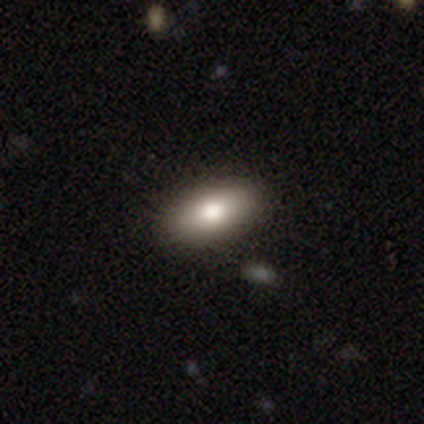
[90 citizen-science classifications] Smooth or featured? 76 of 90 (84%) said smooth. How rounded? 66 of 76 (87%) said in between. Merging? 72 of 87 (83%) said none.